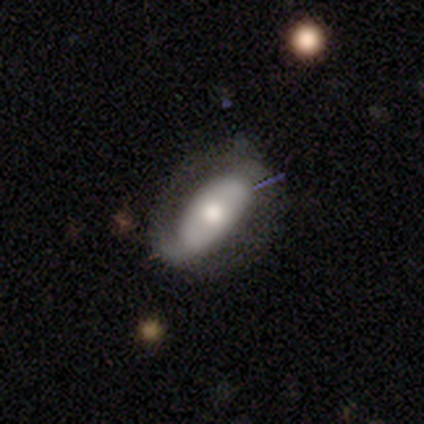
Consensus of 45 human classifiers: Smooth or featured? 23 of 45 (51%) said featured or disk. Edge-on disk? 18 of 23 (78%) said no. Bar? 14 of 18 (78%) said no. Spiral arms? 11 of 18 (61%) said yes. Spiral winding? 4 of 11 (36%, tied with loose) said tight. Spiral arm count? 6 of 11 (55%) said 2. Bulge size? 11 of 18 (61%) said moderate. Merging? 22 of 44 (50%) said none.